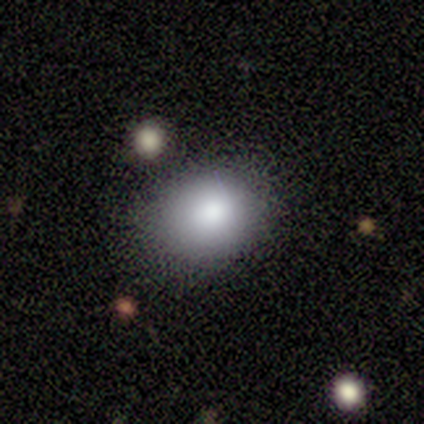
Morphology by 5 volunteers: Smooth or featured? smooth (80%)
How rounded? in between (75%)
Merging? none (50%, tied with merger)